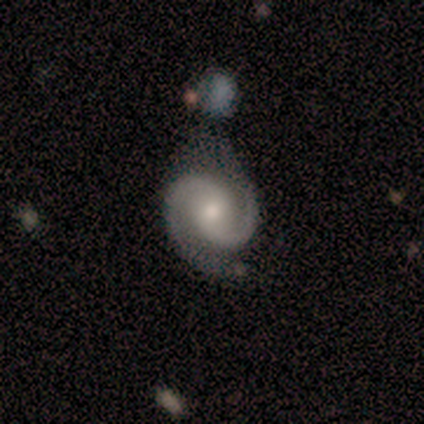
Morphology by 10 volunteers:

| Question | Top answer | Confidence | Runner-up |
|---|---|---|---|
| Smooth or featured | featured or disk | 100% | — |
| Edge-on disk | no | 100% | — |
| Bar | no | 60% | weak (30%) |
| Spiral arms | yes | 100% | — |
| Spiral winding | tight | 40% | medium (30%) |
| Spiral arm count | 2 | 100% | — |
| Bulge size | small | 50% | moderate (40%) |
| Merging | none | 50% | minor disturbance (40%) |